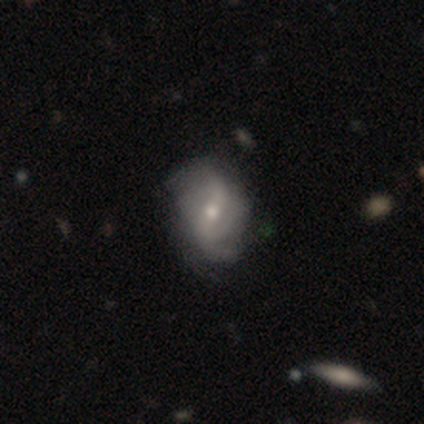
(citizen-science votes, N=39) This appears to be a featured or disk galaxy (85%) with a weak bar (39%, tied with no), 2 (41%) loose (59%) spiral arms (94%) and a moderate central bulge (61%). Merging: none (74%).